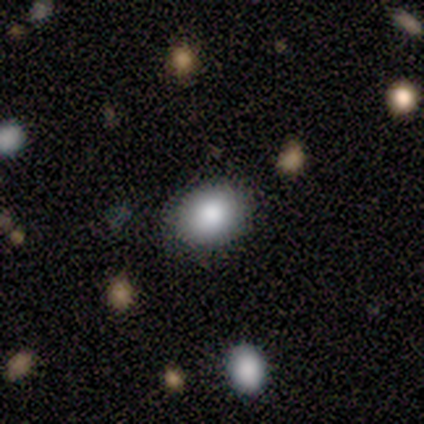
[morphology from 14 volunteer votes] smooth 93%, featured or disk 7%, star or artifact 0%. Down the decision tree: how rounded — in between (62%); merging — none (79%).